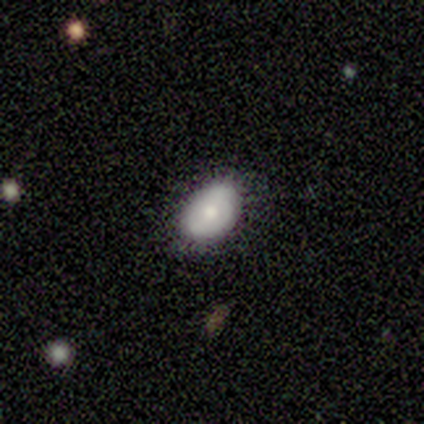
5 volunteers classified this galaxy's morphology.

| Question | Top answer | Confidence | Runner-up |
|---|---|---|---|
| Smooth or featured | smooth | 60% | featured or disk (40%) |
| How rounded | in between | 100% | — |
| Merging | none | 60% | minor disturbance (40%) |